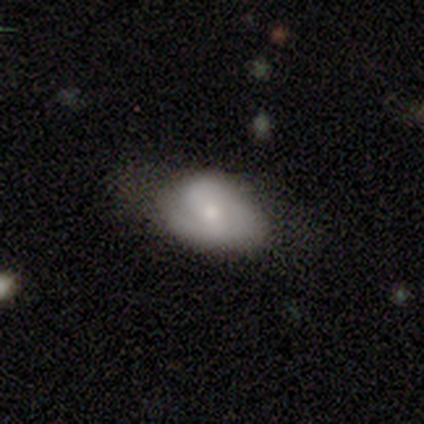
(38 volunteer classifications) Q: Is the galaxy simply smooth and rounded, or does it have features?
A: featured or disk — 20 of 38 (53%).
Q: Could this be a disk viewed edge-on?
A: no — 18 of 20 (90%).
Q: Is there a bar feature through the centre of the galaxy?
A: no — 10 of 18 (56%).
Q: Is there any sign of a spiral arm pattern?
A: yes — 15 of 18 (83%).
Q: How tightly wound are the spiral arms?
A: medium — 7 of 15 (47%).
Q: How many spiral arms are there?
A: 2 — 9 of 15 (60%).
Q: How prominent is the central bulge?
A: moderate — 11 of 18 (61%).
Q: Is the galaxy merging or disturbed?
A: none — 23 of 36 (64%).